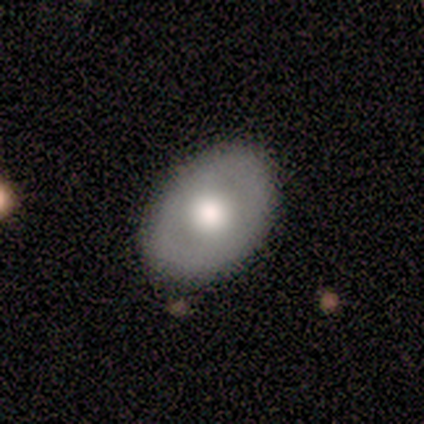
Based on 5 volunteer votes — Smooth or featured?
  - featured or disk: 60% *
  - smooth: 40%
  - star or artifact: 0%
Edge-on disk?
  - no: 100% *
  - yes: 0%
Bar?
  - no: 67% *
  - strong: 33%
  - weak: 0%
Spiral arms?
  - no: 67% *
  - yes: 33%
Bulge size?
  - moderate: 67% *
  - large: 33%
  - dominant: 0%
  - small: 0%
  - none: 0%
Merging?
  - none: 100% *
  - minor disturbance: 0%
  - major disturbance: 0%
  - merger: 0%